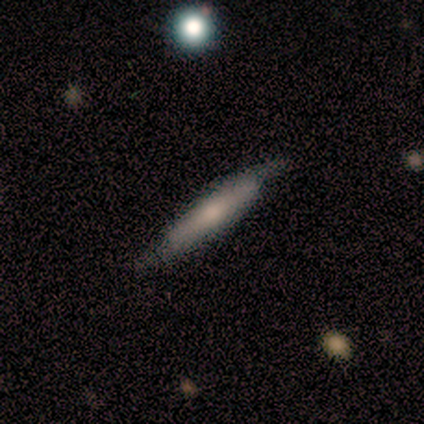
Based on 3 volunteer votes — Morphology: type=featured or disk (67%); edge-on=yes (100%); edge-on bulge=boxy (50%, tied with rounded); merging=none (100%).